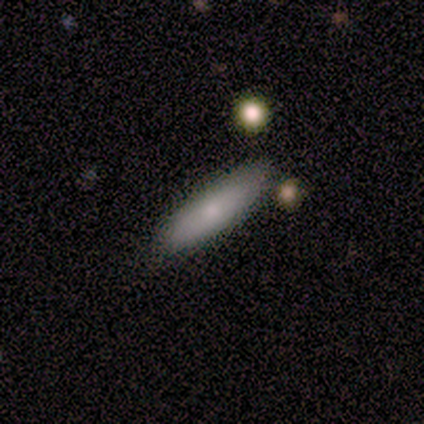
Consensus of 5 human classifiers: This is marginally a smooth galaxy (40%, tied with featured or disk). How rounded: clearly cigar-shaped (100%). Merging: clearly none (100%).